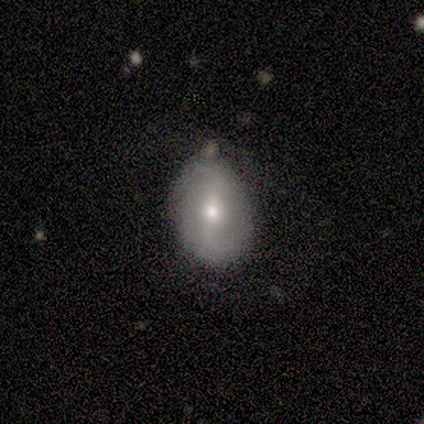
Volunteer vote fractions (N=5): Smooth or featured? 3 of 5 (60%) said smooth. How rounded? 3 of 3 (100%) said in between. Merging? 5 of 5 (100%) said none.